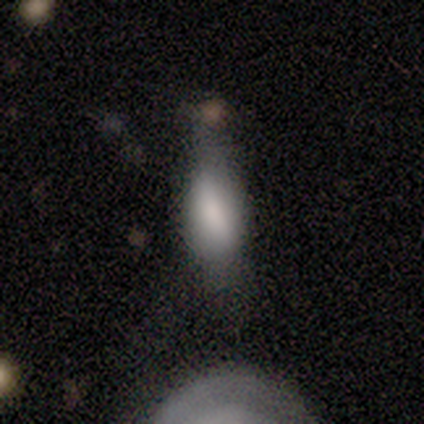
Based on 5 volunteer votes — Smooth or featured?
  - smooth: 60% *
  - featured or disk: 20%
  - star or artifact: 20%
How rounded?
  - in between: 100% *
  - round: 0%
  - cigar-shaped: 0%
Merging?
  - none: 50% *
  - minor disturbance: 25%
  - merger: 25%
  - major disturbance: 0%